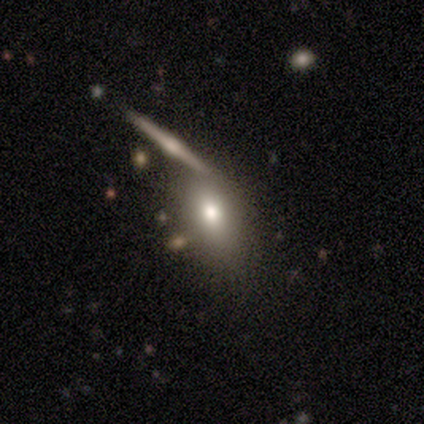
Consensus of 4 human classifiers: Volunteers were most divided on "merging" (3-way tie): none: 33%, minor disturbance: 33%, major disturbance: 33%, merger: 0%. More confident: how rounded — in between (100%); smooth or featured — smooth (75%).